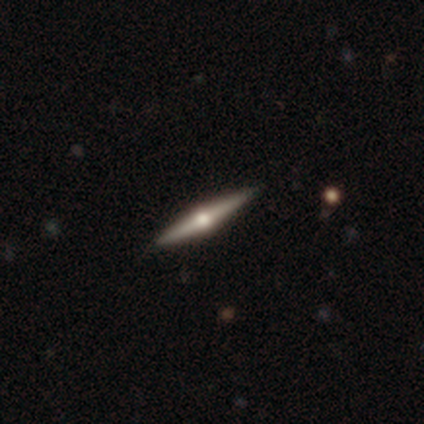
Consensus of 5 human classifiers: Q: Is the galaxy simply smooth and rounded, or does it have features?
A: featured or disk — 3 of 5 (60%).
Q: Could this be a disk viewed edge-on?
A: yes — 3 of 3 (100%).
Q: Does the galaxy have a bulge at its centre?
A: rounded — 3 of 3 (100%).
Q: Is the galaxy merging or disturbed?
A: none — 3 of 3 (100%).